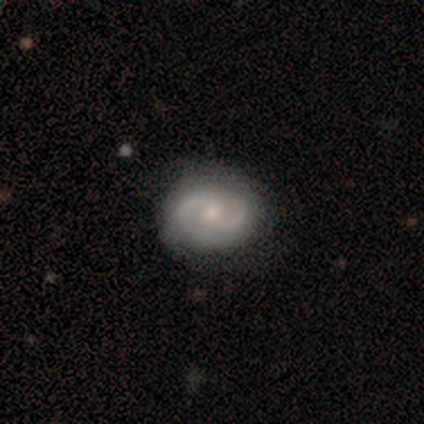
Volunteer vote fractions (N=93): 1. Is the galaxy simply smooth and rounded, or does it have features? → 73% featured or disk, 22% smooth, 5% star or artifact.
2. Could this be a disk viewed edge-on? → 96% no, 4% yes.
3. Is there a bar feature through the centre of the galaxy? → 72% no, 23% weak, 5% strong.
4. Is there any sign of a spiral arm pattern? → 94% yes, 6% no.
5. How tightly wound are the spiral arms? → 51% tight, 39% medium, 10% loose.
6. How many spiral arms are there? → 85% 2, 10% can't tell, 3% 3, 2% 1, 0% 4, 0% more than 4.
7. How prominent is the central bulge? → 54% small, 40% moderate, 3% dominant, 3% none, 0% large.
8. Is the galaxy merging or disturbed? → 84% none, 16% minor disturbance, 0% major disturbance, 0% merger.